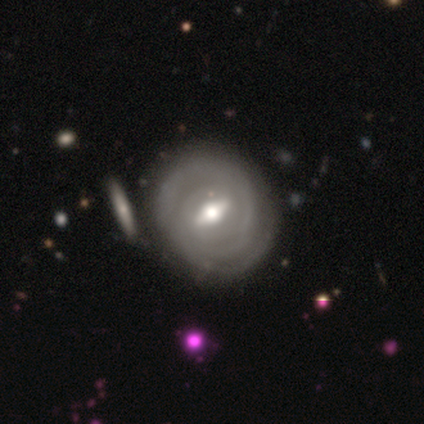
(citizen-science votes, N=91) This appears to be a featured or disk galaxy (78%) with a strong bar (44%, tied with weak), tight (77%) spiral arms (91%) and a moderate central bulge (65%). Merging: none (81%).